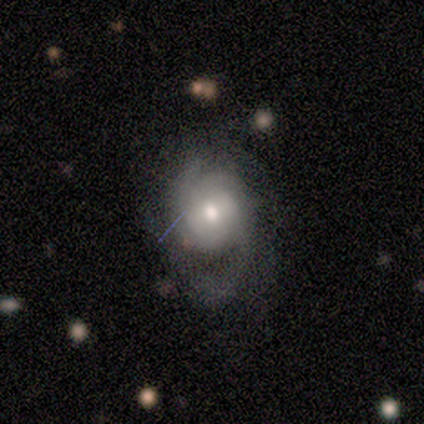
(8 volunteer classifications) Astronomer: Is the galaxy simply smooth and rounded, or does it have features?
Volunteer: featured or disk — 75%.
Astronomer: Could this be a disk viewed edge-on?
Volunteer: no — 100%.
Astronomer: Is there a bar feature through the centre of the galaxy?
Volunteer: no — 67%.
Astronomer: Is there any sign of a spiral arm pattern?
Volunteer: yes — 100%.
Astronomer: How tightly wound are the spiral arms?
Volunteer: tight — 50% (runner-up: medium, 33%).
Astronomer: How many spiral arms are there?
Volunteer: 2 — 50%.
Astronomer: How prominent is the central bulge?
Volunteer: moderate — 67%.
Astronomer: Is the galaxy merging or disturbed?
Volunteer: none — 38%, tied with minor disturbance at 38%.